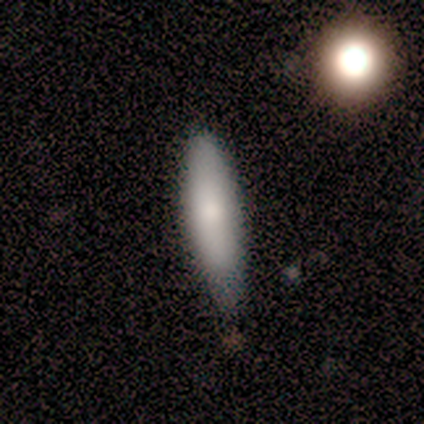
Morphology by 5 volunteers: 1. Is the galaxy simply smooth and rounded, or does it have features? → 60% smooth, 40% featured or disk, 0% star or artifact.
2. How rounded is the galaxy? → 67% in between, 33% cigar-shaped, 0% round.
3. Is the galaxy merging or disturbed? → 60% none, 40% minor disturbance, 0% major disturbance, 0% merger.